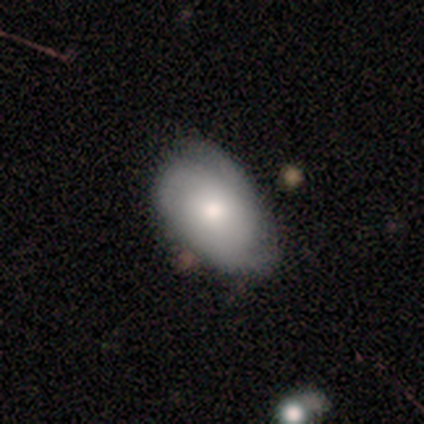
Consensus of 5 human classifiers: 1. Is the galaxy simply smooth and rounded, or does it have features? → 60% smooth, 40% featured or disk, 0% star or artifact.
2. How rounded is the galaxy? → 67% in between, 33% round, 0% cigar-shaped.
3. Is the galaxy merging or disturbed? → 100% none, 0% minor disturbance, 0% major disturbance, 0% merger.